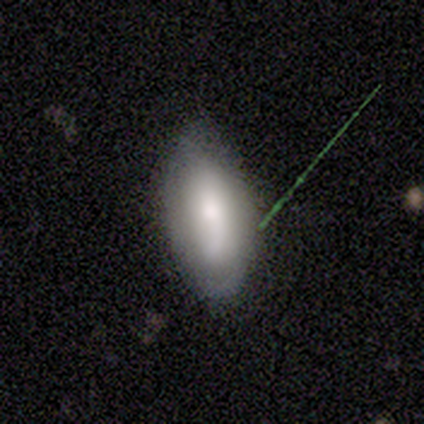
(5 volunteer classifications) smooth-or-featured: smooth: 60% | featured or disk: 20% | star or artifact: 20%
  how-rounded: in between: 100% | round: 0% | cigar-shaped: 0%
  merging: none: 50% (tied) | minor disturbance: 50% (tied) | major disturbance: 0% | merger: 0%